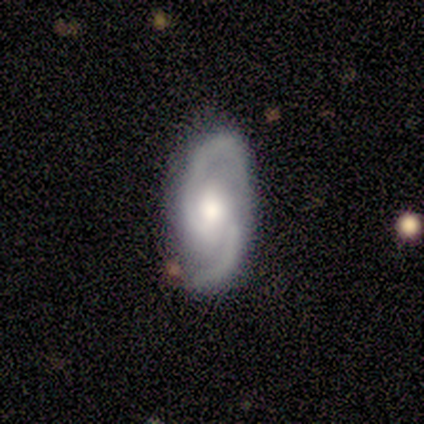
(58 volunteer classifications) Volunteers were most divided on "spiral winding": medium: 54%, loose: 38%, tight: 8%. More confident: edge-on disk — no (100%); spiral arms — yes (100%); spiral arm count — 2 (100%); smooth or featured — featured or disk (86%); merging — none (78%); bulge size — moderate (62%); bar — no (58%).